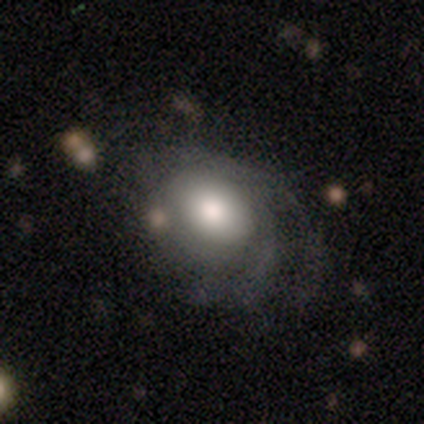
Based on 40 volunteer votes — Smooth or featured? 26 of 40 (65%) said featured or disk. Edge-on disk? 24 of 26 (92%) said no. Bar? 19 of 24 (79%) said no. Spiral arms? 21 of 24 (88%) said yes. Spiral winding? 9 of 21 (43%) said medium. Spiral arm count? 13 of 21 (62%) said can't tell. Bulge size? 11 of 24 (46%) said large. Merging? 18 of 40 (45%) said none.